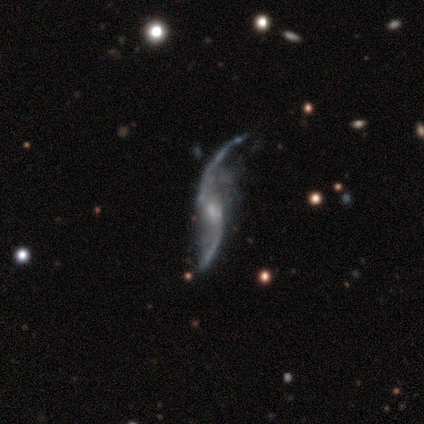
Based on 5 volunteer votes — Smooth or featured? featured or disk (80%)
Edge-on disk? no (100%)
Bar? no (75%)
Spiral arms? yes (100%)
Spiral winding? loose (100%)
Spiral arm count? 2 (100%)
Bulge size? small (75%)
Merging? minor disturbance (60%)